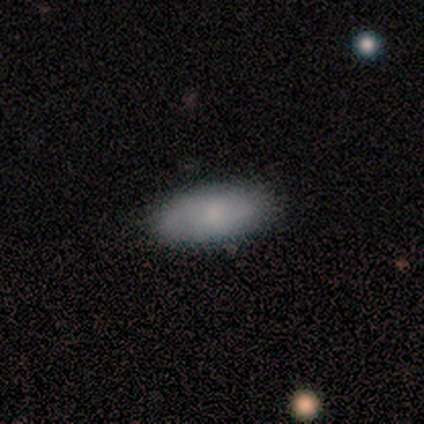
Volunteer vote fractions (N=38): Q: Smooth or featured?
A: smooth (79%); runner-up: featured or disk (18%)
Q: How rounded?
A: in between (90%); runner-up: cigar-shaped (10%)
Q: Merging?
A: none (89%); runner-up: minor disturbance (8%)